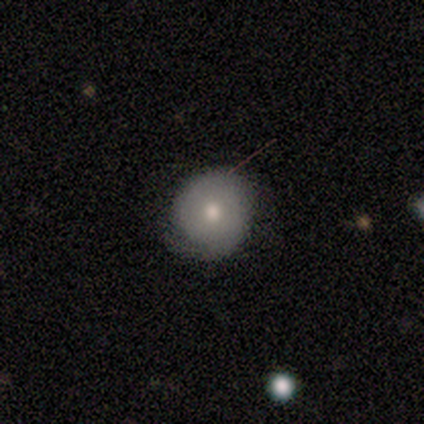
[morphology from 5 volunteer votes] Smooth or featured: featured or disk — 60% (star or artifact — 40%)
Edge-on disk: no — 100%
Bar: no — 67% (strong — 33%)
Spiral arms: yes — 67% (no — 33%)
Spiral winding: tight — 100%
Spiral arm count: 1 — 50% (tied with 2 — 50%)
Bulge size: moderate — 67% (small — 33%)
Merging: none — 67% (minor disturbance — 33%)